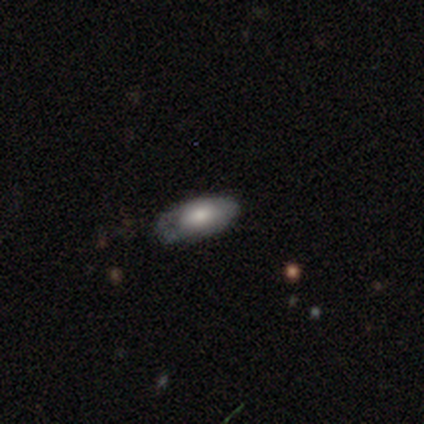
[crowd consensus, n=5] Smooth or featured? smooth (100%)
How rounded? in between (80%)
Merging? minor disturbance (60%)